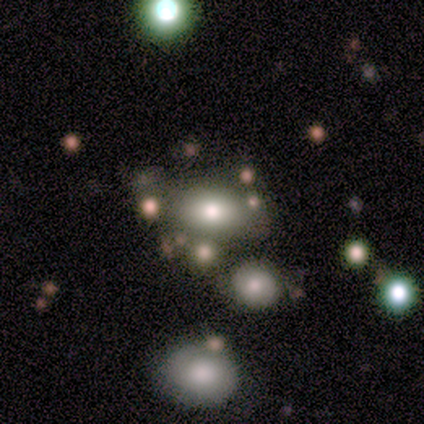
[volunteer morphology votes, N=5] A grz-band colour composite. It shows a smooth galaxy with no disk features (60%) that is in between round and cigar-shaped (100%). Merging: none (60%).